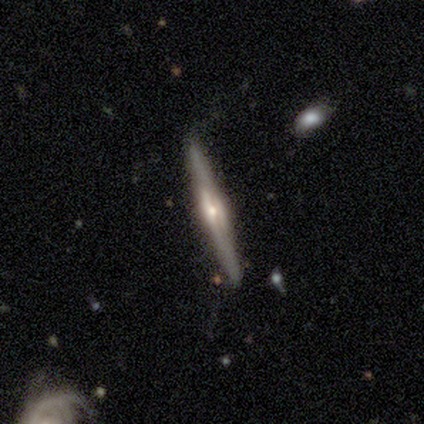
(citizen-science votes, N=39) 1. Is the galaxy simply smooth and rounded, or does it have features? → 85% featured or disk, 10% smooth, 5% star or artifact.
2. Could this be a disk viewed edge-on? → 97% yes, 3% no.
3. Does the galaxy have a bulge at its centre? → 91% rounded, 6% boxy, 3% none.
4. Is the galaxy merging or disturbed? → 97% none, 3% merger, 0% minor disturbance, 0% major disturbance.